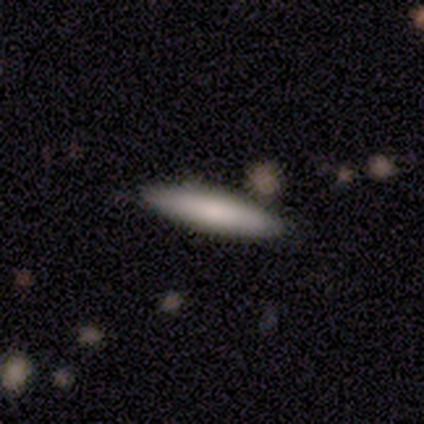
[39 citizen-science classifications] Smooth or featured: smooth — 69% (featured or disk — 26%)
How rounded: cigar-shaped — 85% (in between — 15%)
Merging: none — 92% (minor disturbance — 8%)